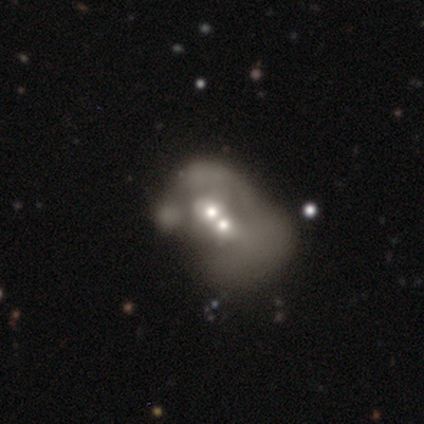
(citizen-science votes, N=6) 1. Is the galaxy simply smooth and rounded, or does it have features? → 50% smooth (tied), 50% featured or disk (tied), 0% star or artifact.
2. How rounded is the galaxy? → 67% in between, 33% round, 0% cigar-shaped.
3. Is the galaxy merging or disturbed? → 100% merger, 0% none, 0% minor disturbance, 0% major disturbance.